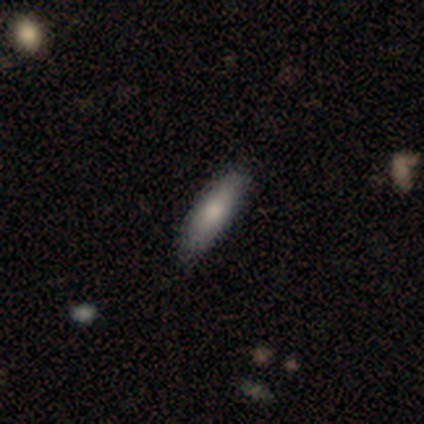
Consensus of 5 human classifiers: A smooth galaxy with no disk features (100%) that is cigar-shaped (60%). Merging: none (80%).